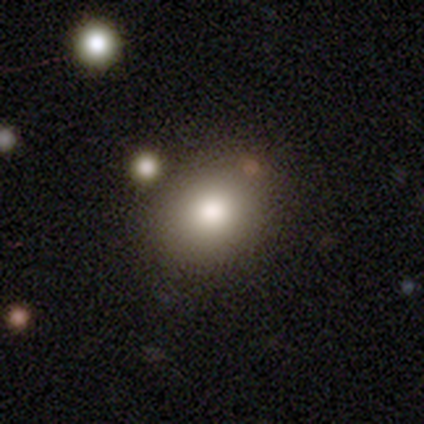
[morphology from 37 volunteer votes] smooth-or-featured: smooth: 81% | star or artifact: 14% | featured or disk: 5%
  how-rounded: round: 50% (tied) | in between: 50% (tied) | cigar-shaped: 0%
  merging: none: 81% | minor disturbance: 9% | major disturbance: 6% | merger: 3%